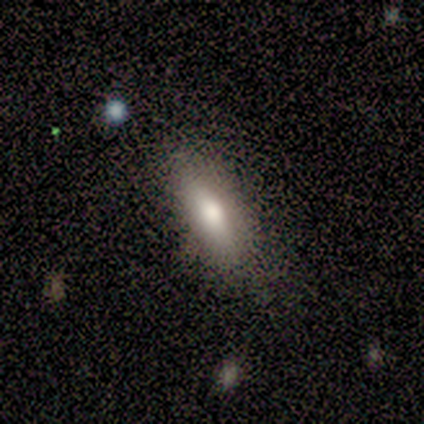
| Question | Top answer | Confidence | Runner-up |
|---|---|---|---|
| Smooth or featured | smooth | 80% | star or artifact (20%) |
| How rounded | in between | 100% | — |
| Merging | none | 100% | — |